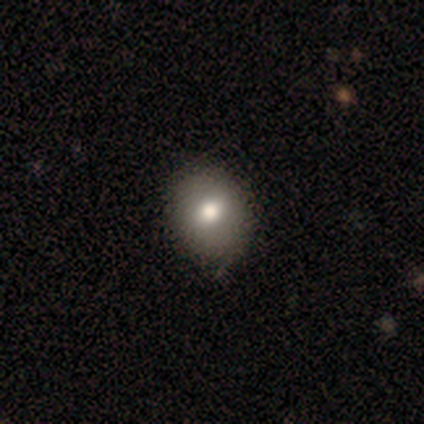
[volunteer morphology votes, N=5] smooth-or-featured: smooth: 80% | featured or disk: 20% | star or artifact: 0%
  how-rounded: round: 50% (tied) | in between: 50% (tied) | cigar-shaped: 0%
  merging: none: 80% | minor disturbance: 20% | major disturbance: 0% | merger: 0%